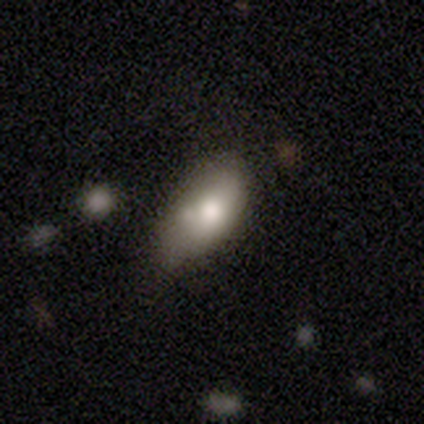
Smooth or featured? smooth (60%)
How rounded? in between (100%)
Merging? minor disturbance (60%)